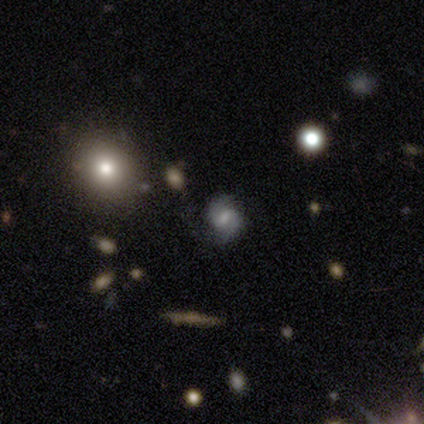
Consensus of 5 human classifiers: Volunteers were most divided on "smooth or featured" (2-way tie): featured or disk: 40%, star or artifact: 40%, smooth: 20%. More confident: edge-on disk — no (100%); bar — weak (100%); spiral arms — yes (100%); spiral winding — medium (100%); spiral arm count — 2 (100%); bulge size — moderate (100%); merging — none (100%).